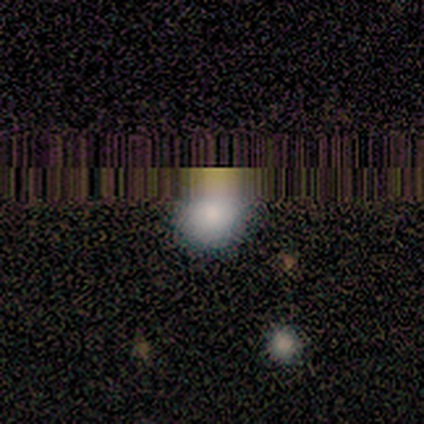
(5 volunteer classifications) Smooth or featured?
  - smooth: 60% *
  - star or artifact: 40%
  - featured or disk: 0%
How rounded?
  - round: 67% *
  - in between: 33%
  - cigar-shaped: 0%
Merging?
  - none: 100% *
  - minor disturbance: 0%
  - major disturbance: 0%
  - merger: 0%